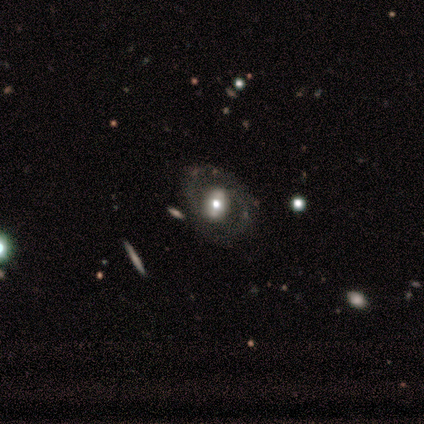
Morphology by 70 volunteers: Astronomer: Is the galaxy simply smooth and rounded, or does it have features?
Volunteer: featured or disk — 74%.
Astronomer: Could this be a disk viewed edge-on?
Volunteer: no — 96%.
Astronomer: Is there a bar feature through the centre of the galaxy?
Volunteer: no — 42% (runner-up: weak, 30%).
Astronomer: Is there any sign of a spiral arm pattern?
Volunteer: yes — 58% (runner-up: no, 42%).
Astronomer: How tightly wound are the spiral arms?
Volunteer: medium — 52% (runner-up: tight, 31%).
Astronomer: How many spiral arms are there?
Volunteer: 2 — 86%.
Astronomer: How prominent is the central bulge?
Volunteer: moderate — 62%.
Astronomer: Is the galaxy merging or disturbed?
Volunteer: none — 54%.